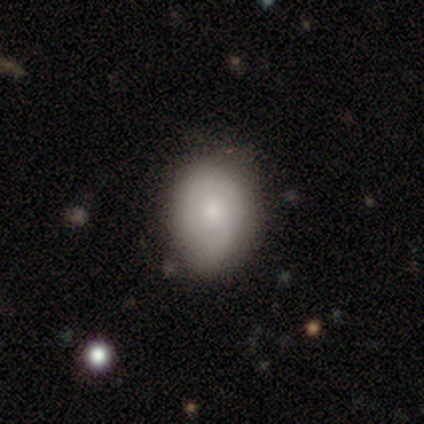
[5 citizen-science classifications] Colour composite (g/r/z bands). It shows a smooth galaxy with no disk features (80%) that is round (50%, tied with in between). Merging: none (80%).